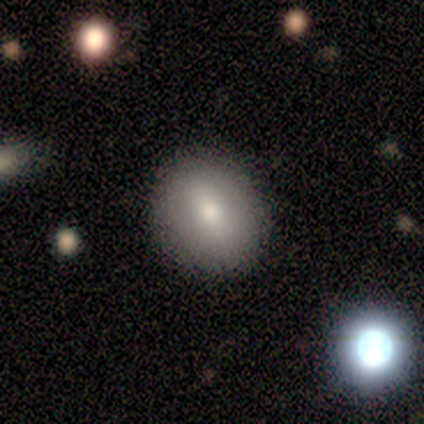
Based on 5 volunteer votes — Smooth or featured?
  - smooth: 100% *
  - featured or disk: 0%
  - star or artifact: 0%
How rounded?
  - round: 100% *
  - in between: 0%
  - cigar-shaped: 0%
Merging?
  - none: 100% *
  - minor disturbance: 0%
  - major disturbance: 0%
  - merger: 0%